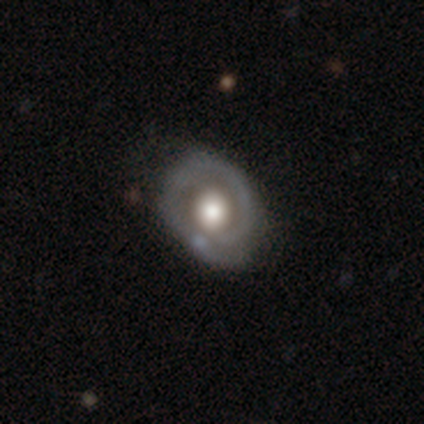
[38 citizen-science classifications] A featured or disk galaxy (79%) with no bar (90%), no spiral arms (59%) and a large central bulge (55%).

Vote fractions:
- Smooth or featured? featured or disk: 79% / smooth: 21% / star or artifact: 0%
- Edge-on disk? no: 97% / yes: 3%
- Bar? no: 90% / weak: 10% / strong: 0%
- Spiral arms? no: 59% / yes: 41%
- Bulge size? large: 55% / moderate: 28% / dominant: 17% / small: 0% / none: 0%
- Merging? none: 34% / minor disturbance: 29% / merger: 8% / major disturbance: 3%